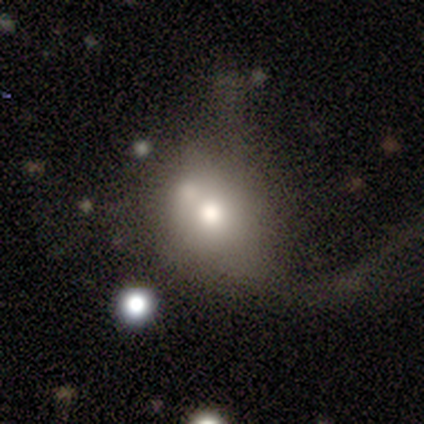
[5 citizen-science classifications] This is likely a smooth galaxy (60%). How rounded: likely round (67%). Merging: likely major disturbance (60%).